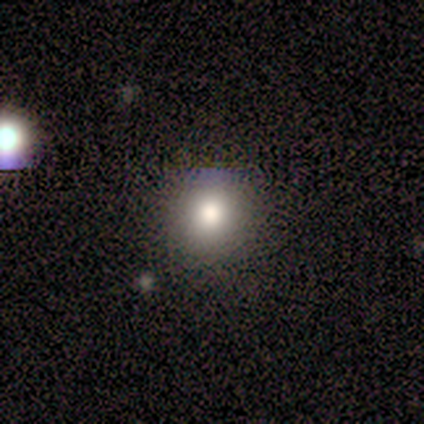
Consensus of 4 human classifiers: Overall: smooth (50%; featured or disk 25%). How rounded: round (100%). Merging: none (100%).